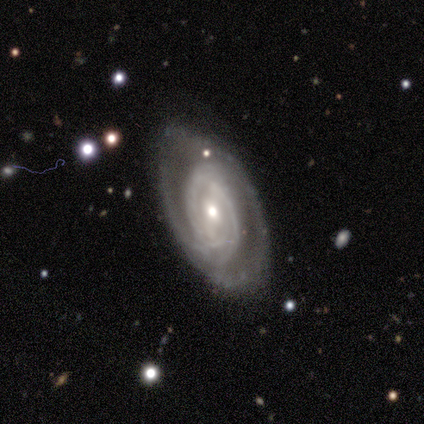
Morphology: type=featured or disk (92%); edge-on=no (94%); bar=weak (44%, tied with no); spiral arms=yes (91%); winding=tight (69%); arm count=can't tell (48%); bulge=small (53%); merging=none (70%).